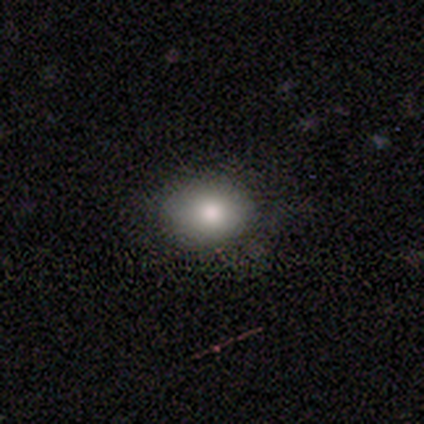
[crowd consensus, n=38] smooth-or-featured: smooth: 76% | featured or disk: 13% | star or artifact: 11%
  how-rounded: in between: 69% | round: 31% | cigar-shaped: 0%
  merging: none: 88% | minor disturbance: 9% | major disturbance: 3% | merger: 0%